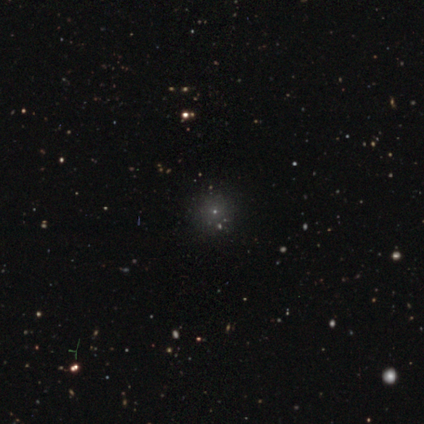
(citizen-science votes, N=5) smooth 60%, star or artifact 40%, featured or disk 0%. Down the decision tree: how rounded — round (100%); merging — none (100%).